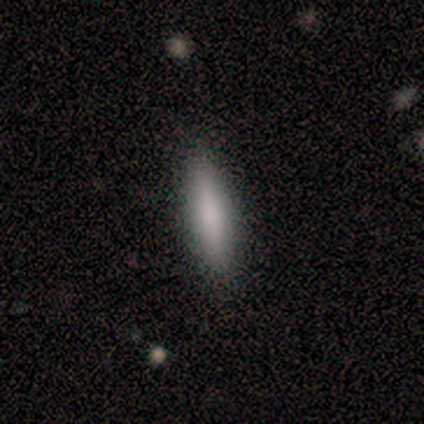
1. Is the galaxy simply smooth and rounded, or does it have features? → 100% smooth, 0% featured or disk, 0% star or artifact.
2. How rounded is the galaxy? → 80% cigar-shaped, 20% in between, 0% round.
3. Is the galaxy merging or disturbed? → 100% none, 0% minor disturbance, 0% major disturbance, 0% merger.